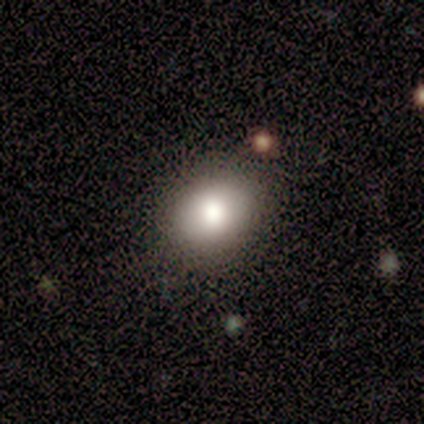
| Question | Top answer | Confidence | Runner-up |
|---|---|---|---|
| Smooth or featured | smooth | 92% | star or artifact (8%) |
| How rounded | in between | 64% | round (36%) |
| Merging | none | 91% | minor disturbance (9%) |